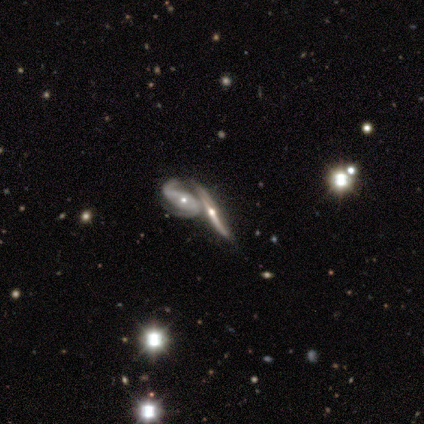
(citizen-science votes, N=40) A featured or disk galaxy (82%) with a weak bar (53%), 2 (79%) loose (57%) spiral arms (82%) and a small central bulge (53%). Merging: merger (41%).